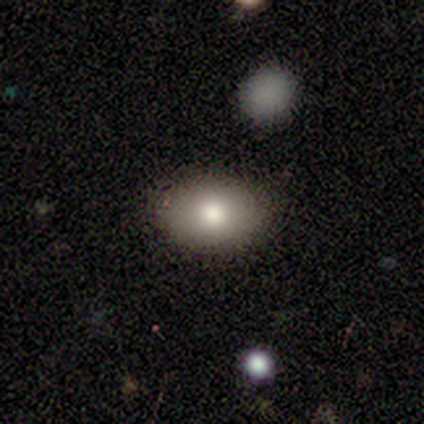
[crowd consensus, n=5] Q: Smooth or featured?
A: smooth (100%)
Q: How rounded?
A: in between (100%)
Q: Merging?
A: none (100%)